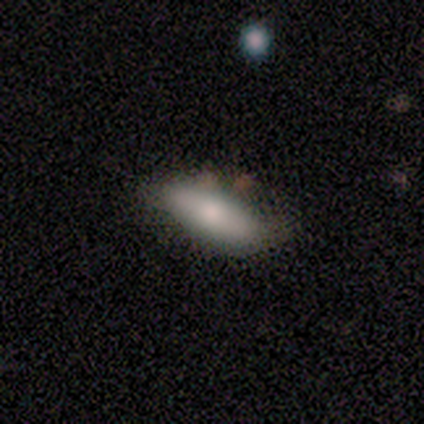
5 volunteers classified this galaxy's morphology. smooth_or_featured: smooth (p=0.80) [alt: featured or disk p=0.20]
how_rounded: in between (p=1.00)
merging: none (p=0.80) [alt: minor disturbance p=0.20]